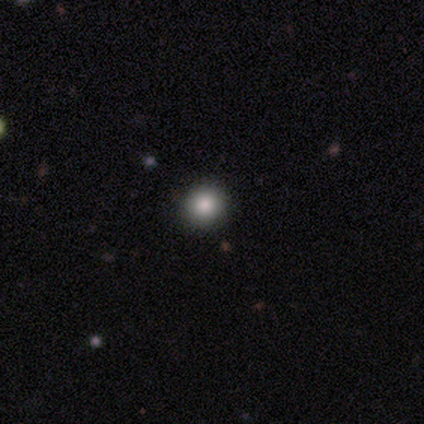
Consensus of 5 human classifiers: smooth-or-featured: smooth: 80% | star or artifact: 20% | featured or disk: 0%
  how-rounded: round: 100% | in between: 0% | cigar-shaped: 0%
  merging: none: 100% | minor disturbance: 0% | major disturbance: 0% | merger: 0%